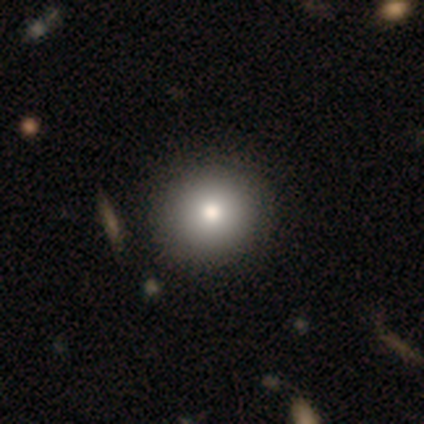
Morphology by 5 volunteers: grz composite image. It shows a smooth galaxy with no disk features (80%) that is round (100%). Merging: none (75%).